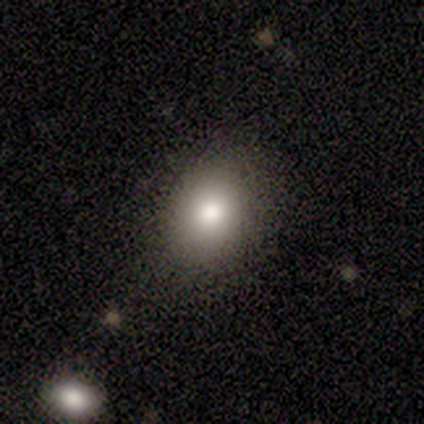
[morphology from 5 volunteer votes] Smooth or featured? 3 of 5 (60%) said smooth. How rounded? 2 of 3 (67%) said round. Merging? 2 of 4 (50%, tied with minor disturbance) said none.